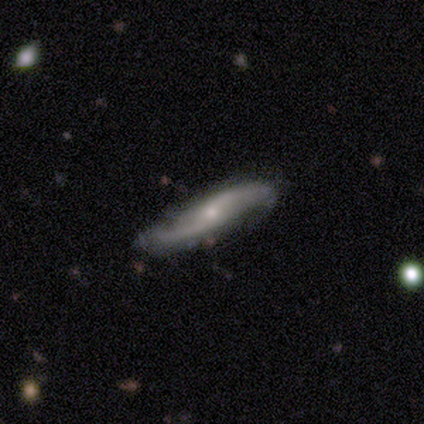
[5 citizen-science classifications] Overall: featured or disk (100%). Edge-on disk: yes (80%). Edge-on bulge: rounded (100%). Merging: none (60%; minor disturbance 40%).